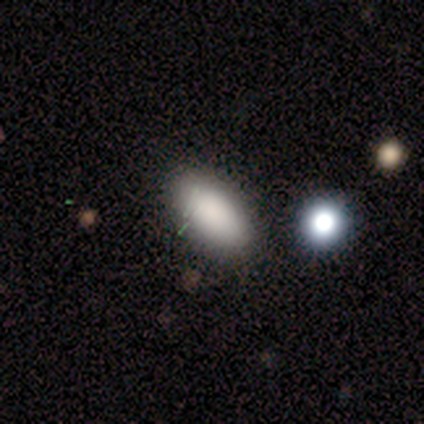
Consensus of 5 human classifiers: Overall: smooth (100%). How rounded: in between (100%). Merging: none (80%).